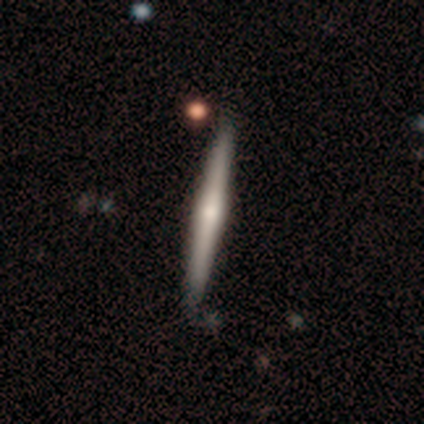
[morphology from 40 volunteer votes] This appears to be a featured or disk galaxy (78%) viewed edge-on (100%) with a rounded central bulge (68%). Merging: none (49%).